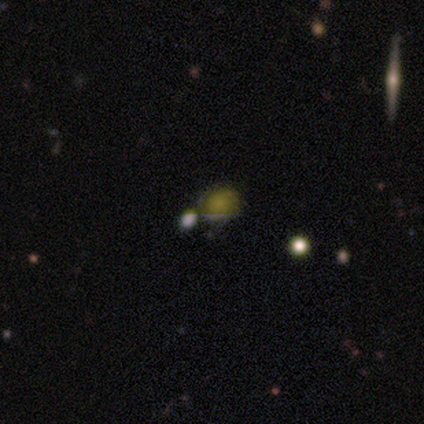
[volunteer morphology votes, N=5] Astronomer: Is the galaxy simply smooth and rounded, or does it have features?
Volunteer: featured or disk — 60%.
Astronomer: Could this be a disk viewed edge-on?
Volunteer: no — 100%.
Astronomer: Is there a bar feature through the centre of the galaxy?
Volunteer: no — 100%.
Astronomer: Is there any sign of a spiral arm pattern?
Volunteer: yes — 67%.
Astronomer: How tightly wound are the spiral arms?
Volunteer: tight — 100%.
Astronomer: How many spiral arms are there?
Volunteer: can't tell — 100%.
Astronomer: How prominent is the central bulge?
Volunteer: moderate — 67%.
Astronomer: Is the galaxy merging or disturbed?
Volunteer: none — 25%, tied with minor disturbance, major disturbance and merger at 25%.